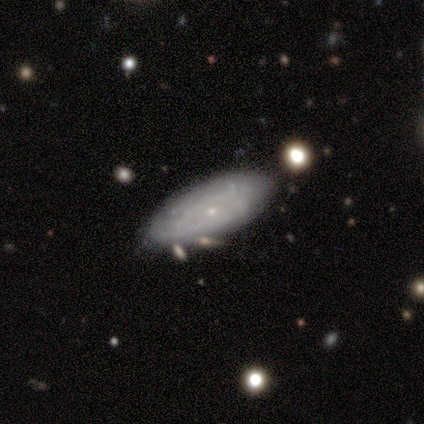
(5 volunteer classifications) Smooth or featured? 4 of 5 (80%) said featured or disk. Edge-on disk? 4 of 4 (100%) said no. Bar? 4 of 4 (100%) said no. Spiral arms? 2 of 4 (50%, tied with no) said yes. Spiral winding? 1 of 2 (50%, tied with loose) said tight. Spiral arm count? 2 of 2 (100%) said can't tell. Bulge size? 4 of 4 (100%) said small. Merging? 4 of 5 (80%) said none.